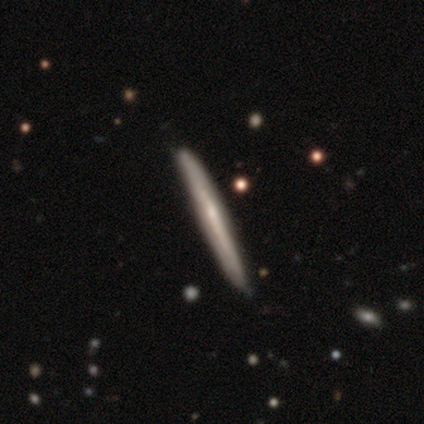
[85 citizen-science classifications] This is possibly a featured or disk galaxy (54%). It is clearly viewed edge-on (93%). Edge-on bulge: likely none (70%). Merging: clearly none (85%).